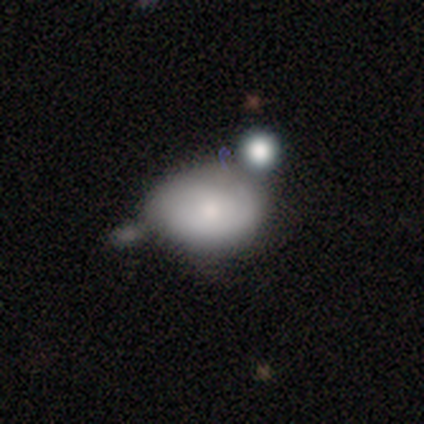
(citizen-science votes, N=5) Smooth or featured: featured or disk — 60% (smooth — 40%)
Edge-on disk: no — 100%
Bar: no — 100%
Spiral arms: no — 67% (yes — 33%)
Bulge size: moderate — 67% (none — 33%)
Merging: minor disturbance — 40% (none — 20%)